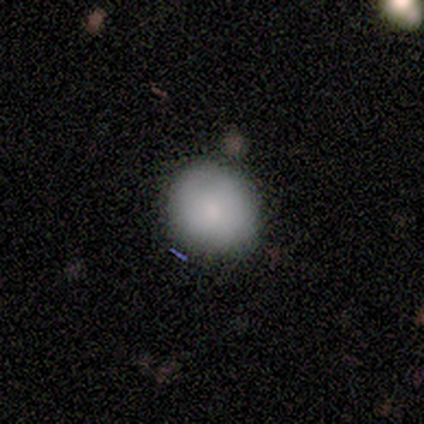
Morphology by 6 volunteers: A smooth galaxy with no disk features (83%) that is round (100%). Merging: none (83%).